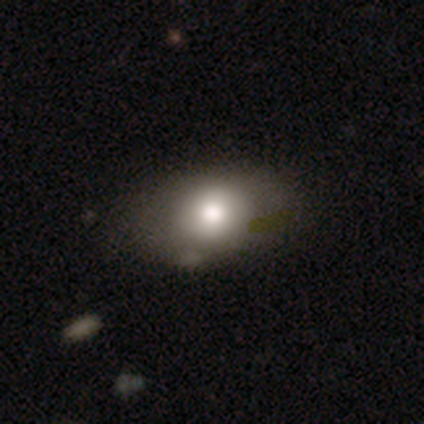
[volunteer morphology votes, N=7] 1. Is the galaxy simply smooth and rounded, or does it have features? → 57% smooth, 43% featured or disk, 0% star or artifact.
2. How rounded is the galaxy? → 75% in between, 25% round, 0% cigar-shaped.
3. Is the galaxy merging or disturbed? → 57% none, 29% minor disturbance, 14% merger, 0% major disturbance.